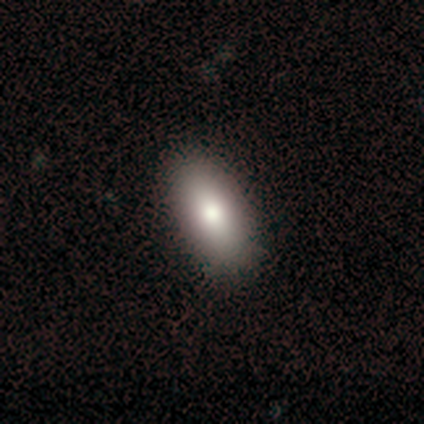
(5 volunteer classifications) Smooth or featured: smooth — 60% (featured or disk — 20%)
How rounded: in between — 100%
Merging: none — 100%